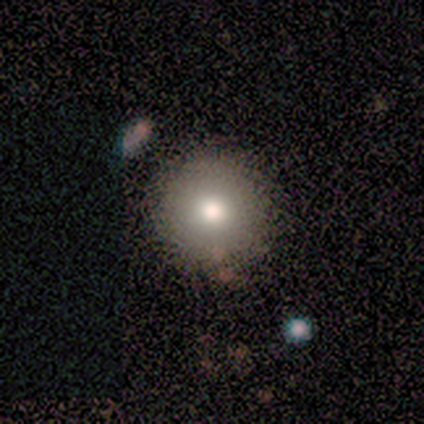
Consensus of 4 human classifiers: This is clearly a smooth galaxy (100%). How rounded: clearly round (100%). Merging: likely none (75%).